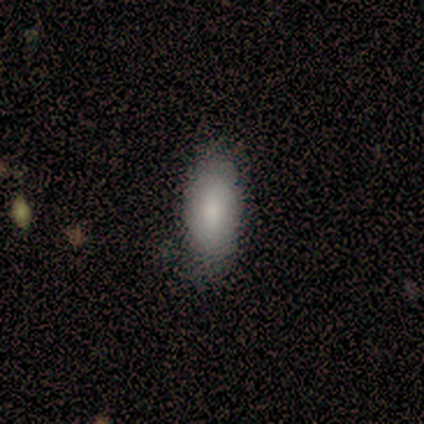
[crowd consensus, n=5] Smooth or featured? smooth (80%)
How rounded? in between (100%)
Merging? none (50%, tied with minor disturbance)